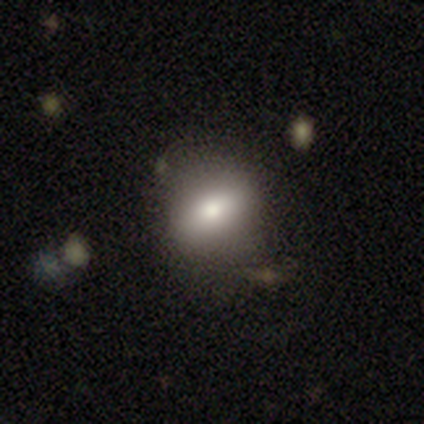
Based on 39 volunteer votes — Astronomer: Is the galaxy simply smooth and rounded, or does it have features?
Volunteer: smooth — 77%.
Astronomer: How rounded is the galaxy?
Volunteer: in between — 67%.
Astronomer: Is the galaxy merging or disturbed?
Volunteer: none — 61%.